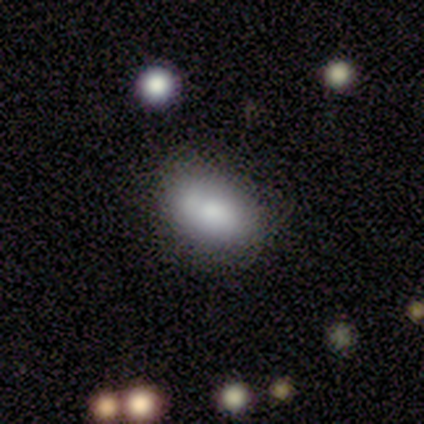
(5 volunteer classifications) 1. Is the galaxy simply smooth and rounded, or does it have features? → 60% smooth, 40% featured or disk, 0% star or artifact.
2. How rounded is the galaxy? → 100% in between, 0% round, 0% cigar-shaped.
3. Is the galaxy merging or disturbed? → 80% none, 20% merger, 0% minor disturbance, 0% major disturbance.